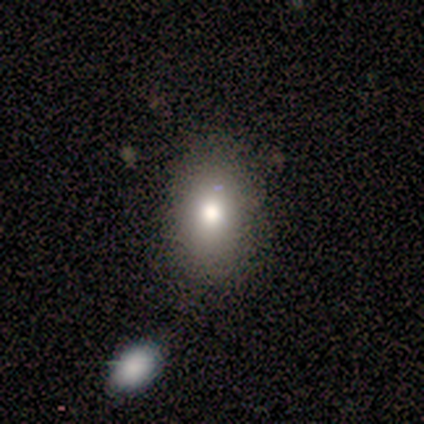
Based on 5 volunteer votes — This appears to be a smooth galaxy with no disk features (80%) that is round (50%, tied with in between). Merging: none (100%).